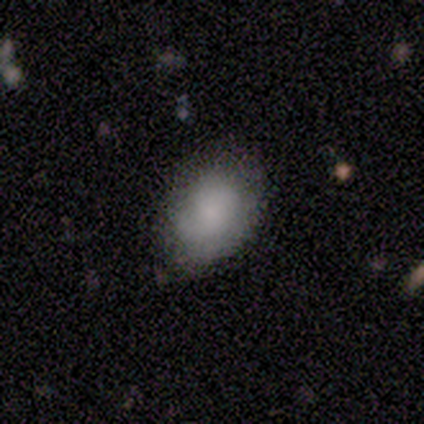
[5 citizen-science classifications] smooth-or-featured: smooth: 100% | featured or disk: 0% | star or artifact: 0%
  how-rounded: in between: 100% | round: 0% | cigar-shaped: 0%
  merging: none: 60% | minor disturbance: 40% | major disturbance: 0% | merger: 0%